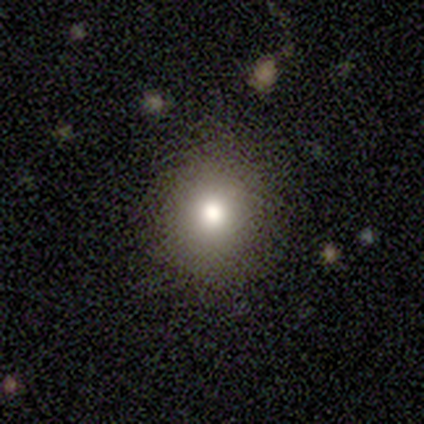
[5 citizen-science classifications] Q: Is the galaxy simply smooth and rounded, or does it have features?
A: smooth — 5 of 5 (100%).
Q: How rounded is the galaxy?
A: in between — 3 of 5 (60%).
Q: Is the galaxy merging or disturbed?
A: none — 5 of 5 (100%).